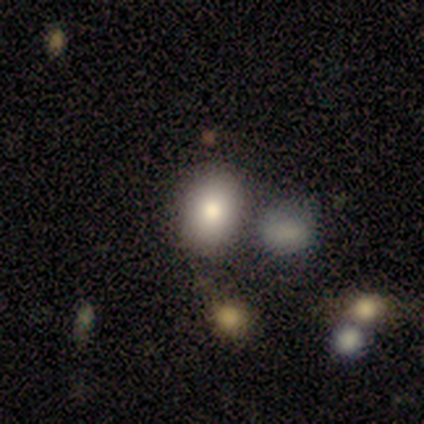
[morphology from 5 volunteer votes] A smooth galaxy with no disk features (60%) that is in between round and cigar-shaped (67%). Merging: none (50%).